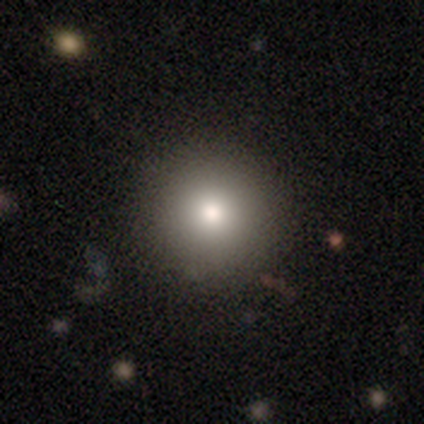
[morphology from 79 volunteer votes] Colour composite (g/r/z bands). It shows a smooth galaxy with no disk features (77%) that is round (98%). Merging: none (47%).